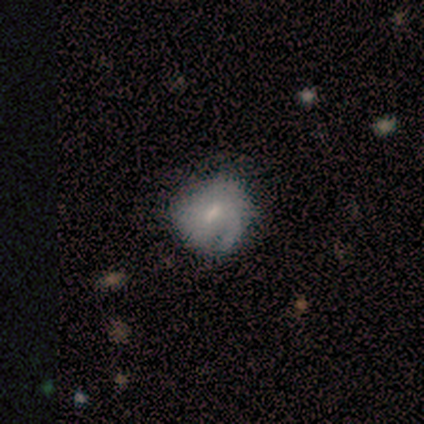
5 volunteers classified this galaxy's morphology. A smooth galaxy with no disk features (60%) that is round (67%). Merging: minor disturbance (50%).